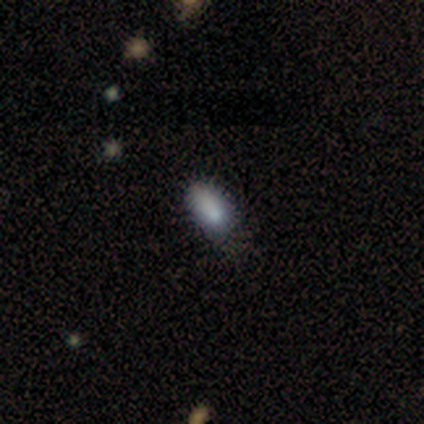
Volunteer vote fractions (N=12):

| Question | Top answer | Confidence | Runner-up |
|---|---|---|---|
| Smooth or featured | smooth | 83% | star or artifact (17%) |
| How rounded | in between | 90% | cigar-shaped (10%) |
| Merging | none | 80% | minor disturbance (20%) |